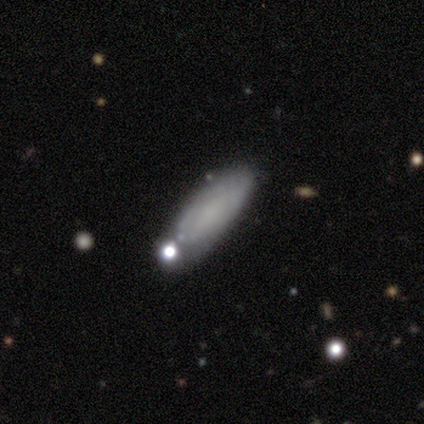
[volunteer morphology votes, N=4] smooth 50% (tied), featured or disk 50% (tied), star or artifact 0%. Down the decision tree: how rounded — in between (50%, tied with cigar-shaped); merging — none (100%).